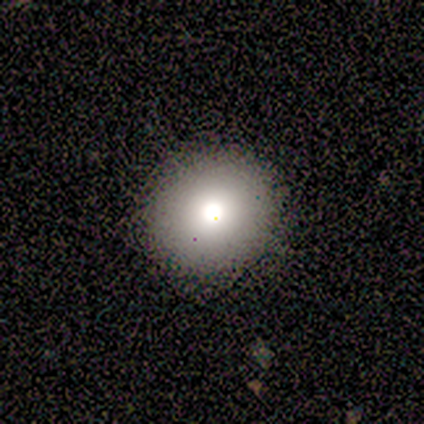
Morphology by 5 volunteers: Volunteers were most divided on "how rounded": round: 75%, in between: 25%, cigar-shaped: 0%. More confident: merging — none (100%); smooth or featured — smooth (80%).